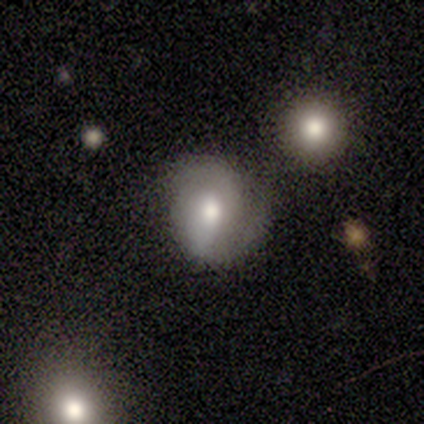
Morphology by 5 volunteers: Smooth or featured? featured or disk (80%)
Edge-on disk? no (100%)
Bar? no (75%)
Spiral arms? yes (50%, tied with no)
Spiral winding? tight (50%, tied with medium)
Spiral arm count? 2 (50%, tied with can't tell)
Bulge size? moderate (50%)
Merging? none (40%, tied with minor disturbance)